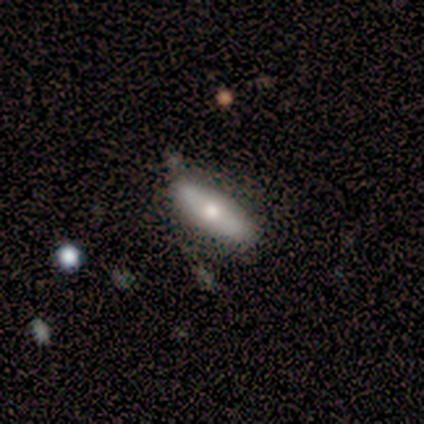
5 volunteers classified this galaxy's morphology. type=smooth (80%); roundness=in between (50%, tied with cigar-shaped); merging=none (80%).